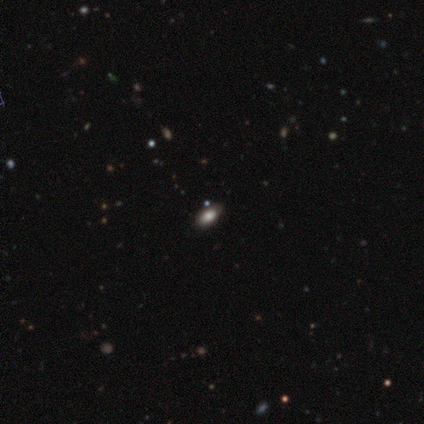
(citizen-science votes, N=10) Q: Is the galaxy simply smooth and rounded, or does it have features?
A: smooth — 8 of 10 (80%).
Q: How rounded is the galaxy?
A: in between — 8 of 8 (100%).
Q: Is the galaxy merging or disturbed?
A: none — 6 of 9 (67%).